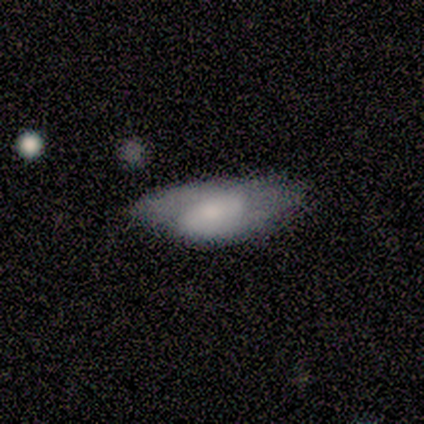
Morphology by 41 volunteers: smooth_or_featured: smooth (p=0.54) [alt: featured or disk p=0.37]
how_rounded: in between (p=0.95) [alt: cigar-shaped p=0.05]
merging: minor disturbance (p=0.38) [alt: none p=0.32]